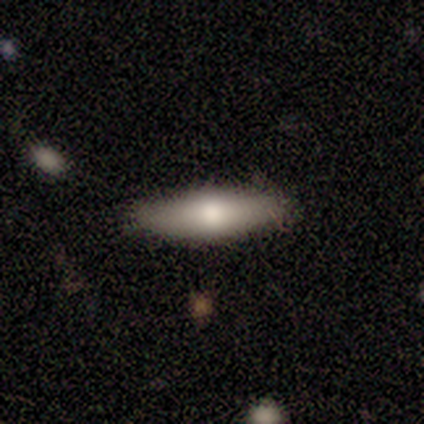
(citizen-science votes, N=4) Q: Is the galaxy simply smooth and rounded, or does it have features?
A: smooth — 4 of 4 (100%).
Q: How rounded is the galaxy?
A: in between — 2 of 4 (50%, tied with cigar-shaped).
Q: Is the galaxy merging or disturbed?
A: none — 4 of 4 (100%).